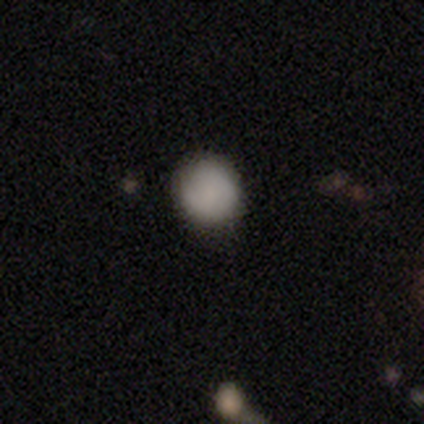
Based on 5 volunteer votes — Smooth or featured: smooth — 80% (star or artifact — 20%)
How rounded: round — 100%
Merging: none — 100%